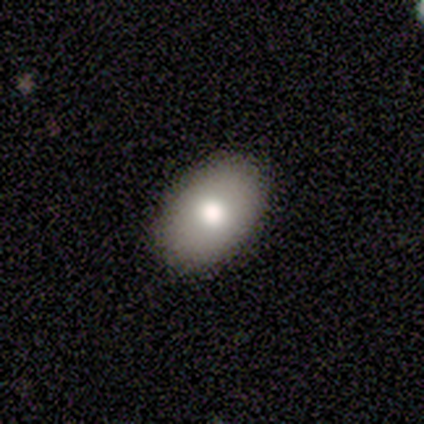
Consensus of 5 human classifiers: Smooth or featured? 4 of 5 (80%) said smooth. How rounded? 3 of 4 (75%) said in between. Merging? 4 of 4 (100%) said none.